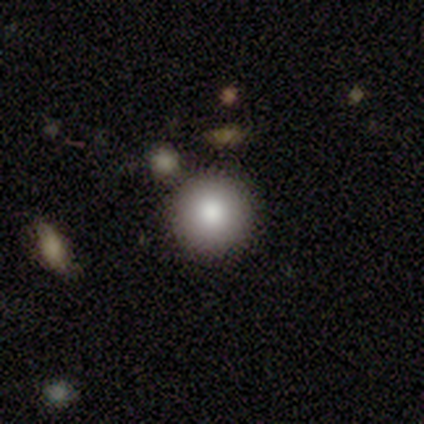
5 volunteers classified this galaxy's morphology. Smooth or featured?
  - smooth: 100% *
  - featured or disk: 0%
  - star or artifact: 0%
How rounded?
  - round: 100% *
  - in between: 0%
  - cigar-shaped: 0%
Merging?
  - none: 80% *
  - merger: 20%
  - minor disturbance: 0%
  - major disturbance: 0%